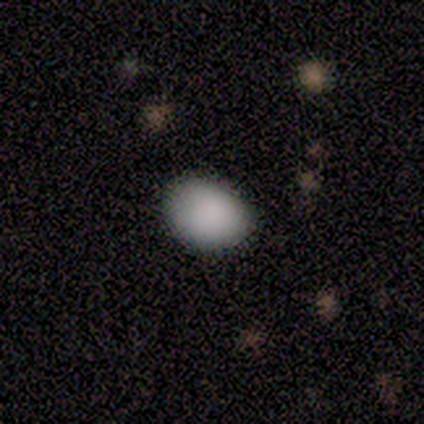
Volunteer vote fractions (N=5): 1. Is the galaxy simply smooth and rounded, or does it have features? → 100% smooth, 0% featured or disk, 0% star or artifact.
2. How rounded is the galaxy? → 60% round, 40% in between, 0% cigar-shaped.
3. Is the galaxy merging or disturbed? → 80% none, 20% minor disturbance, 0% major disturbance, 0% merger.